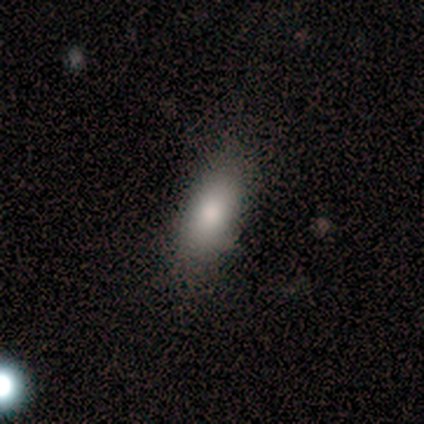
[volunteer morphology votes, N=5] Smooth or featured: smooth — 60% (star or artifact — 40%)
How rounded: in between — 100%
Merging: none — 67% (minor disturbance — 33%)